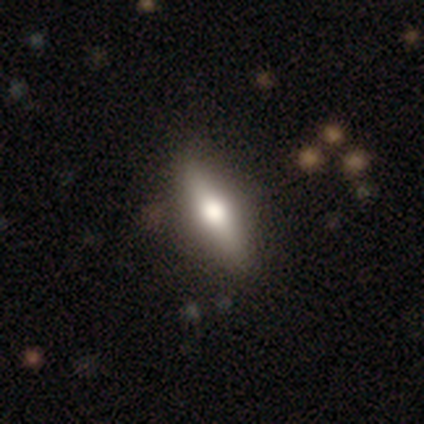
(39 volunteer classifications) Smooth or featured? 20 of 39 (51%) said smooth. How rounded? 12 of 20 (60%) said in between. Merging? 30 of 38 (79%) said none.